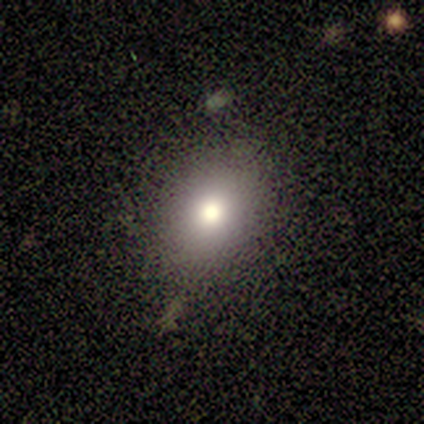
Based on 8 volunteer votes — Smooth or featured?
  - smooth: 88% *
  - featured or disk: 12%
  - star or artifact: 0%
How rounded?
  - in between: 86% *
  - round: 14%
  - cigar-shaped: 0%
Merging?
  - none: 88% *
  - minor disturbance: 12%
  - major disturbance: 0%
  - merger: 0%